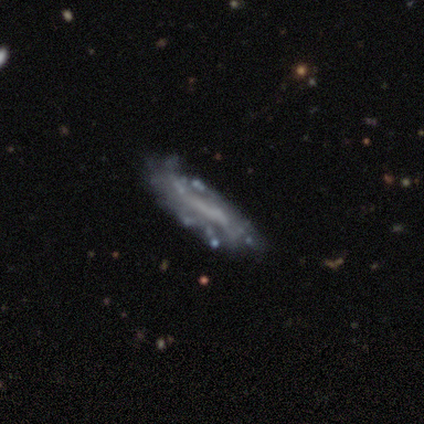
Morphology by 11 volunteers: Smooth or featured? 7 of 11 (64%) said featured or disk. Edge-on disk? 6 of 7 (86%) said no. Bar? 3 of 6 (50%, tied with no) said strong. Spiral arms? 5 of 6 (83%) said no. Bulge size? 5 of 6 (83%) said none. Merging? 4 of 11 (36%, tied with major disturbance) said minor disturbance.